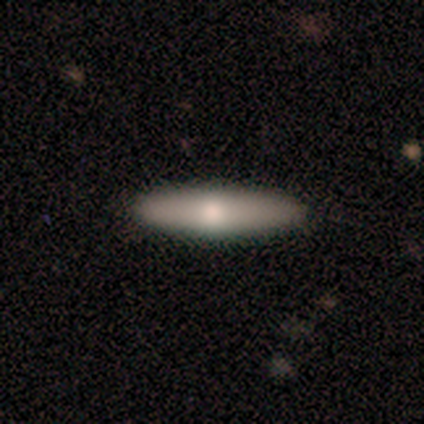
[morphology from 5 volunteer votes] Q: Smooth or featured?
A: featured or disk (60%); runner-up: smooth (40%)
Q: Edge-on disk?
A: yes (100%)
Q: Edge-on bulge?
A: rounded (100%)
Q: Merging?
A: none (100%)